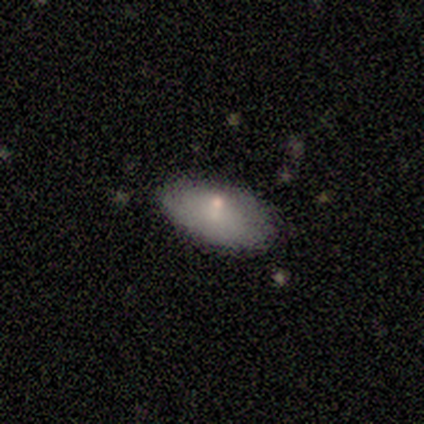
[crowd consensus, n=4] Morphology: type=smooth (100%); roundness=in between (75%); merging=minor disturbance (50%).